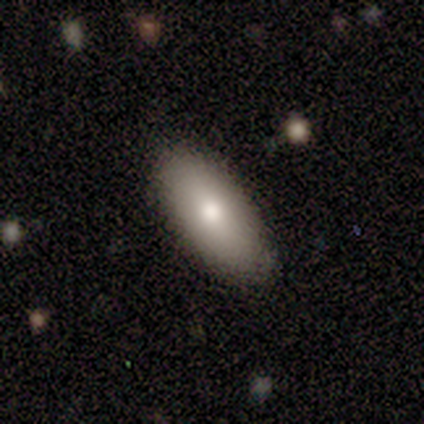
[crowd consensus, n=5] Smooth or featured: smooth — 80% (featured or disk — 20%)
How rounded: in between — 75% (cigar-shaped — 25%)
Merging: none — 100%